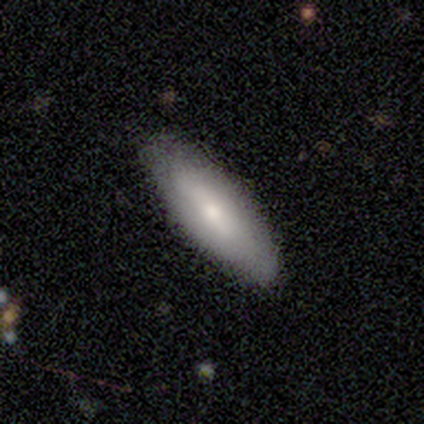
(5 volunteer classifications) This appears to be a smooth galaxy with no disk features (80%) that is in between round and cigar-shaped (50%, tied with cigar-shaped). Merging: none (80%).